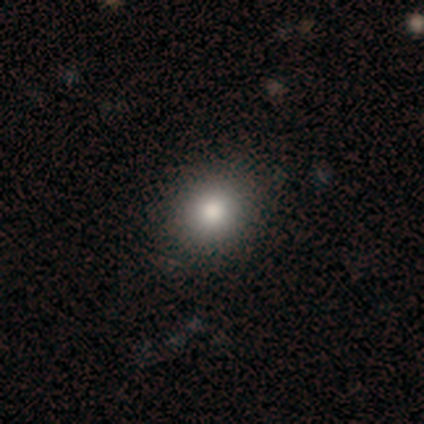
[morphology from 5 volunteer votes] smooth 60%, featured or disk 20%, star or artifact 20%. Down the decision tree: how rounded — round (67%); merging — none (100%).